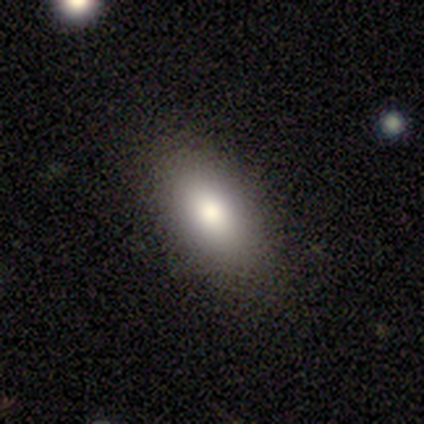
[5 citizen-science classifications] This is clearly a smooth galaxy (100%). How rounded: clearly in between (80%). Merging: clearly none (80%).